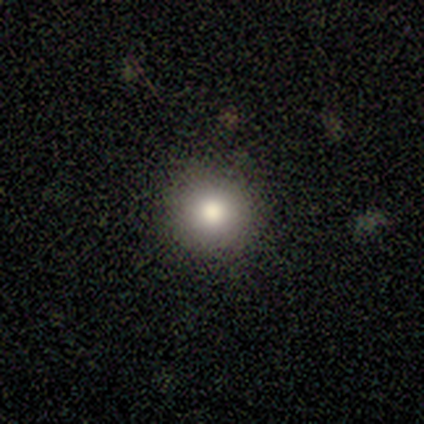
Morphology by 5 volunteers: This appears to be a smooth galaxy with no disk features (40%, tied with star or artifact) that is round (100%). Merging: none (67%).